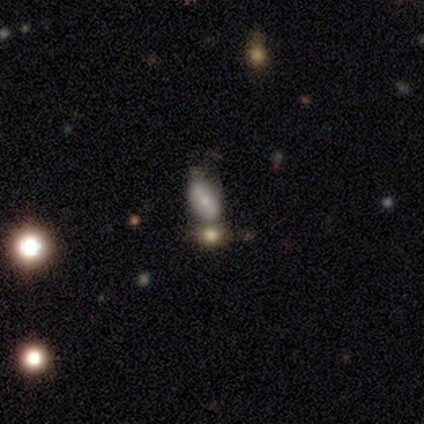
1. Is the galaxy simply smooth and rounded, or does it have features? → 60% smooth, 20% featured or disk, 20% star or artifact.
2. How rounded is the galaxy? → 100% in between, 0% round, 0% cigar-shaped.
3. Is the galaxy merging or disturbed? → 100% merger, 0% none, 0% minor disturbance, 0% major disturbance.